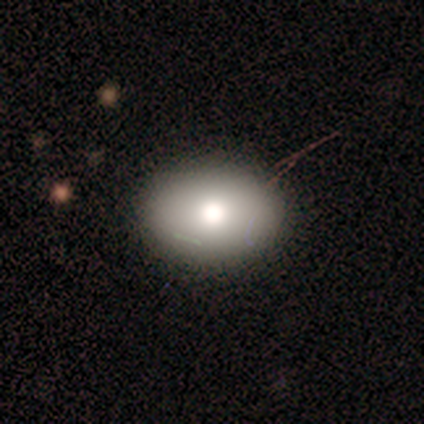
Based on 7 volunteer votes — Volunteers were most divided on "smooth or featured": smooth: 57%, featured or disk: 43%, star or artifact: 0%. More confident: how rounded — in between (100%); merging — none (86%).